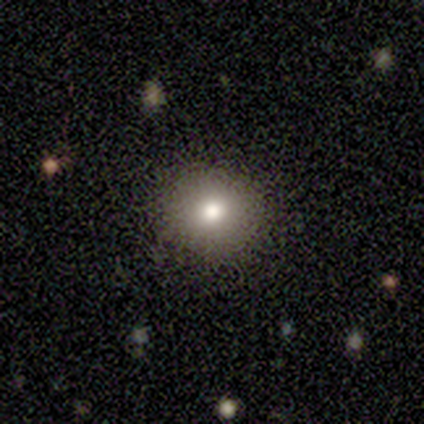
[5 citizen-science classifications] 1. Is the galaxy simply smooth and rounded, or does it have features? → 60% smooth, 40% star or artifact, 0% featured or disk.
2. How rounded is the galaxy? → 67% round, 33% in between, 0% cigar-shaped.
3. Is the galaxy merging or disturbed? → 67% none, 33% minor disturbance, 0% major disturbance, 0% merger.